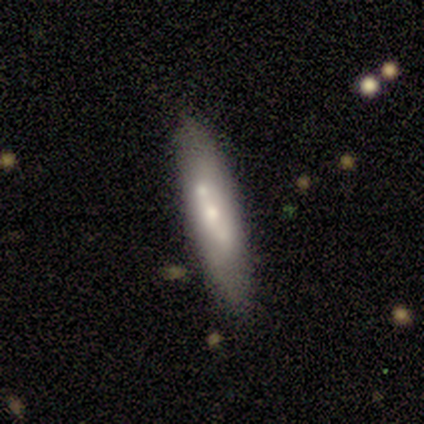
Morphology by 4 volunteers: A smooth galaxy with no disk features (50%, tied with featured or disk) that is cigar-shaped (100%).

Vote fractions:
- Smooth or featured? smooth: 50% (tied) / featured or disk: 50% (tied) / star or artifact: 0%
- How rounded? cigar-shaped: 100% / round: 0% / in between: 0%
- Merging? none: 75% / minor disturbance: 25% / major disturbance: 0% / merger: 0%